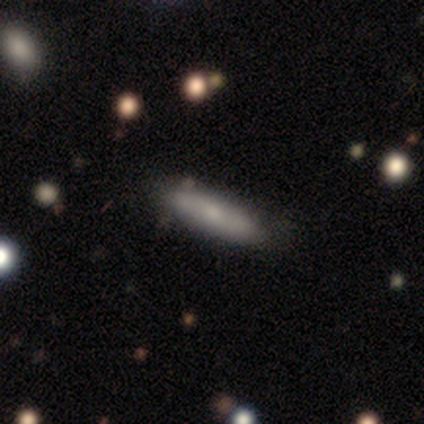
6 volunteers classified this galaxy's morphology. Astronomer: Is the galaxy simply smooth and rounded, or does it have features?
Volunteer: smooth — 50% (runner-up: featured or disk, 33%).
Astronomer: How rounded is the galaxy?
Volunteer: cigar-shaped — 67%.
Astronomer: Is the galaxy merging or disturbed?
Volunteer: none — 60% (runner-up: merger, 40%).